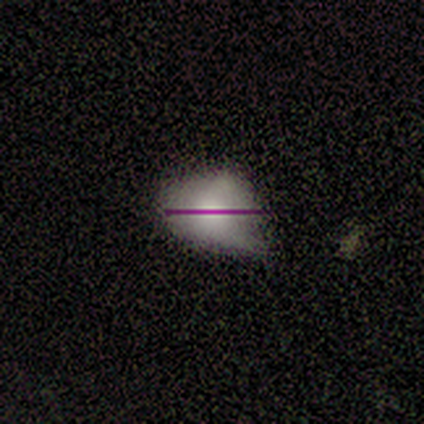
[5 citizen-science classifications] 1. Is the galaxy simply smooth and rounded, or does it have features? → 40% smooth (tied), 40% featured or disk (tied), 20% star or artifact.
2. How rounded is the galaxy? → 100% round, 0% in between, 0% cigar-shaped.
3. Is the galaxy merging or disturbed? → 50% none (tied), 50% minor disturbance (tied), 0% major disturbance, 0% merger.